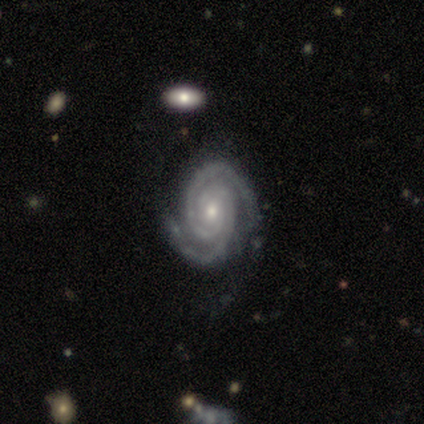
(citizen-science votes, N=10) featured or disk 100%, smooth 0%, star or artifact 0%. Down the decision tree: edge-on disk — no (100%); bar — no (80%); spiral arms — yes (100%); spiral arm count — 2 (100%); spiral winding — tight (80%); bulge size — small (70%); merging — none (80%).